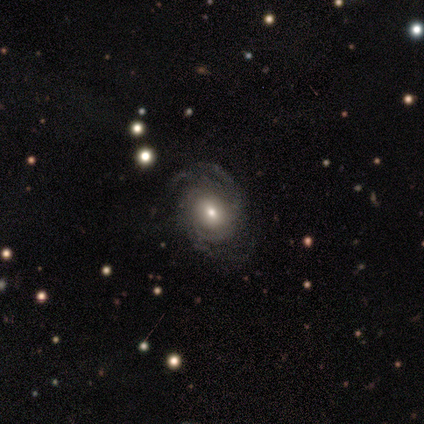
smooth-or-featured: featured or disk: 93% | star or artifact: 7% | smooth: 0%
  disk-edge-on: no: 100% | yes: 0%
    bar: no: 77% | weak: 23% | strong: 0%
    has-spiral-arms: yes: 92% | no: 8%
      spiral-winding: medium: 58% | tight: 33% | loose: 8%
      spiral-arm-count: 3: 42% | 2: 25% | can't tell: 25% | more than 4: 8% | 1: 0% | 4: 0%
    bulge-size: moderate: 46% (tied) | small: 46% (tied) | large: 8% | dominant: 0% | none: 0%
  merging: none: 92% | minor disturbance: 8% | major disturbance: 0% | merger: 0%